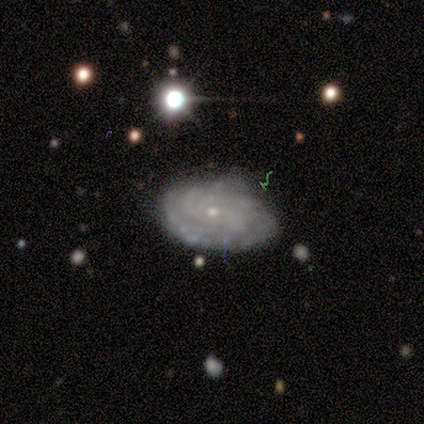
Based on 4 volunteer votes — smooth-or-featured: featured or disk: 75% | smooth: 25% | star or artifact: 0%
  disk-edge-on: no: 100% | yes: 0%
    bar: no: 100% | strong: 0% | weak: 0%
    has-spiral-arms: yes: 100% | no: 0%
      spiral-winding: tight: 67% | medium: 33% | loose: 0%
      spiral-arm-count: 3: 33% (tied) | 4: 33% (tied) | can't tell: 33% (tied) | 1: 0% | 2: 0% | more than 4: 0%
    bulge-size: small: 100% | dominant: 0% | large: 0% | moderate: 0% | none: 0%
  merging: none: 75% | minor disturbance: 25% | major disturbance: 0% | merger: 0%